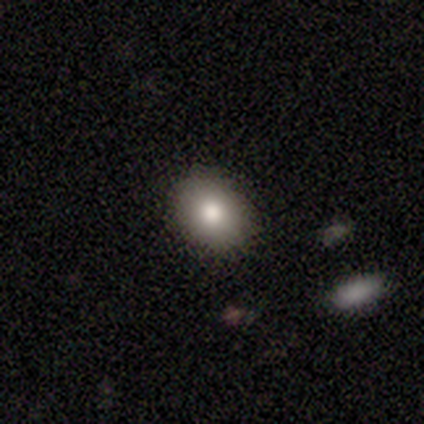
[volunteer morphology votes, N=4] Smooth or featured: smooth — 100%
How rounded: round — 50% (tied with in between — 50%)
Merging: none — 100%